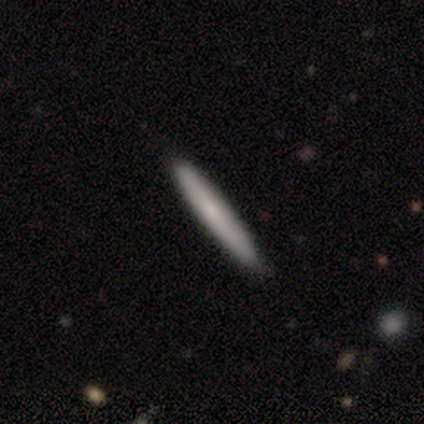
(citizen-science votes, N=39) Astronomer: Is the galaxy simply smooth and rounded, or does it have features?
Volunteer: smooth — 74%.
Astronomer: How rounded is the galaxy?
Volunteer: cigar-shaped — 90%.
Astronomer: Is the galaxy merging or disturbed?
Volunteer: none — 89%.